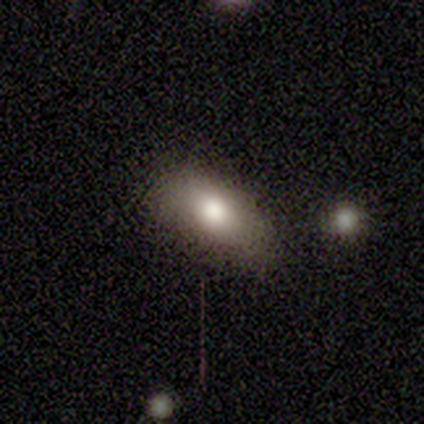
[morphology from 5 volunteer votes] This is clearly a smooth galaxy (80%). How rounded: clearly in between (100%). Merging: likely none (75%).